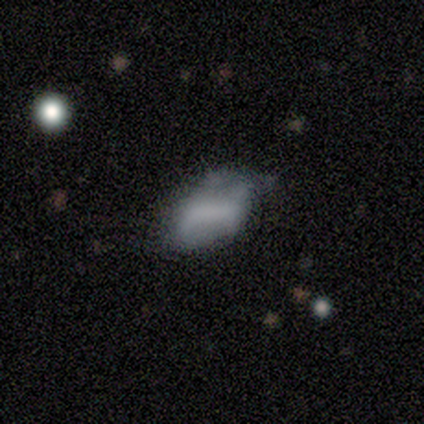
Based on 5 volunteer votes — Overall: smooth (80%). How rounded: in between (100%). Merging: none (60%; minor disturbance 40%).